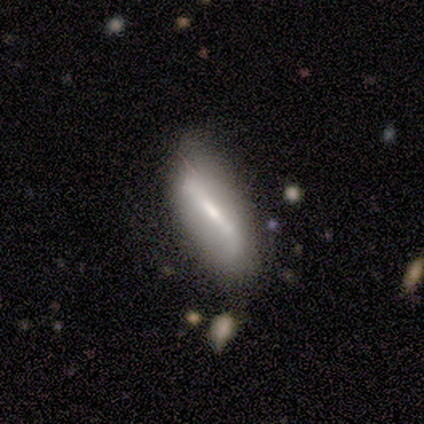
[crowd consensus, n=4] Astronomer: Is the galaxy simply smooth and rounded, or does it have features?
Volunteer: smooth — 75%.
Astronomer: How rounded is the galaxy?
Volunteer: in between — 67%.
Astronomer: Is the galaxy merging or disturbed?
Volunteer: none — 50%, tied with minor disturbance at 50%.